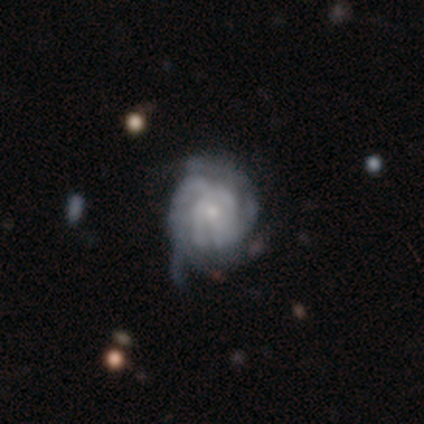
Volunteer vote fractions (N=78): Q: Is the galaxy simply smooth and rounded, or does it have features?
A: featured or disk — 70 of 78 (90%).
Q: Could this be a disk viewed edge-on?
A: no — 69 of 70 (99%).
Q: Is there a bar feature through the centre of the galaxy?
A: no — 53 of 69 (77%).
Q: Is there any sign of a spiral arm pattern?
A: yes — 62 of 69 (90%).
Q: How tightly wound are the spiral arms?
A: tight — 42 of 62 (68%).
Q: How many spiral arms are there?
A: can't tell — 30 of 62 (48%).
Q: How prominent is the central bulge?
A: small — 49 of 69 (71%).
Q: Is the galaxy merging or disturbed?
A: minor disturbance — 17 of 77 (22%).